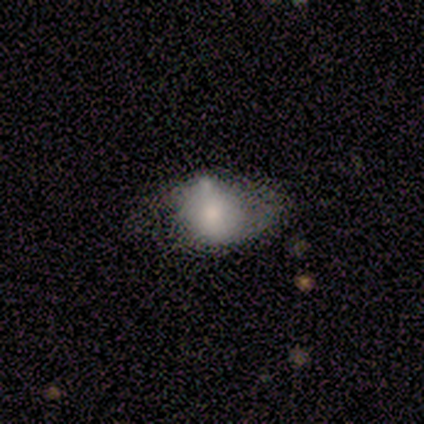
Smooth or featured: smooth — 100%
How rounded: round — 60% (in between — 40%)
Merging: none — 40% (tied with minor disturbance — 40%)